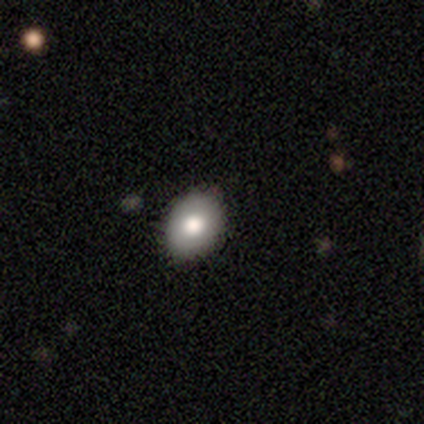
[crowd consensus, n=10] Smooth or featured? smooth (80%)
How rounded? in between (88%)
Merging? none (78%)